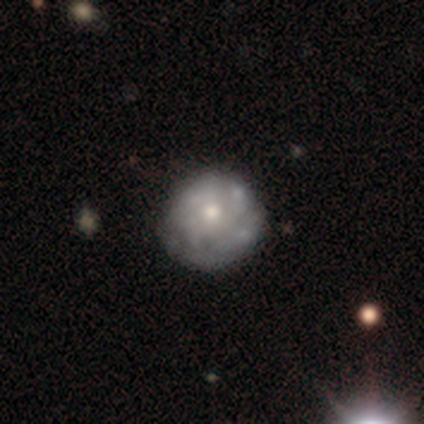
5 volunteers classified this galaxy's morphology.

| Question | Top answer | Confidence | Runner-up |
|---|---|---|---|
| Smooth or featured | smooth | 60% | featured or disk (20%) |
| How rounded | round | 100% | — |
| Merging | none | 100% | — |